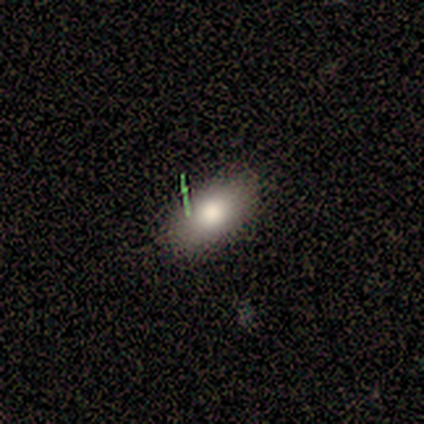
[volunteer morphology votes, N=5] smooth_or_featured: smooth (p=1.00)
how_rounded: in between (p=1.00)
merging: none (p=1.00)